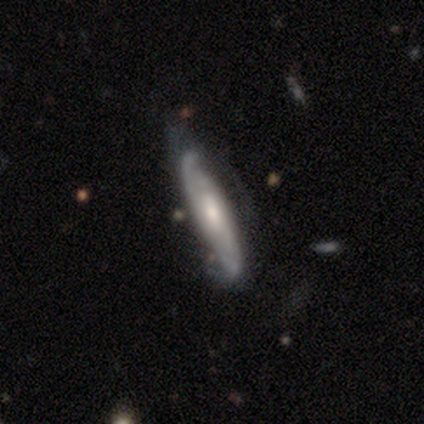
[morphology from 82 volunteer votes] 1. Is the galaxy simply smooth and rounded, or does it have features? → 77% featured or disk, 22% smooth, 1% star or artifact.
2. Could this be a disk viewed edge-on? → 60% no, 40% yes.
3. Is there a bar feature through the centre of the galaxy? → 50% no, 39% weak, 11% strong.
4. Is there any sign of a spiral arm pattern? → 97% yes, 3% no.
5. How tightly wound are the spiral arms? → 49% tight, 35% medium, 16% loose.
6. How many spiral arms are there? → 65% 2, 27% can't tell, 5% 3, 3% 1, 0% 4, 0% more than 4.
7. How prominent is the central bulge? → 55% moderate, 26% small, 8% large, 8% none, 3% dominant.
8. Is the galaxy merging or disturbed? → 64% none, 23% minor disturbance, 11% major disturbance, 1% merger.